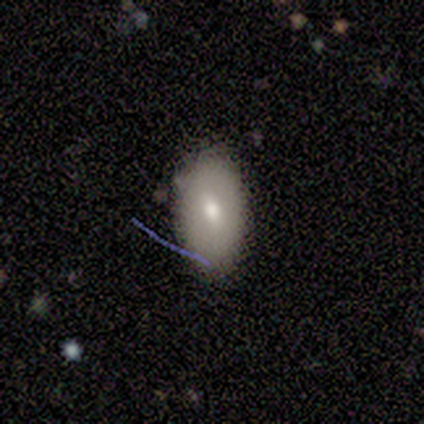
Smooth or featured? 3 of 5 (60%) said smooth. How rounded? 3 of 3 (100%) said in between. Merging? 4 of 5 (80%) said none.